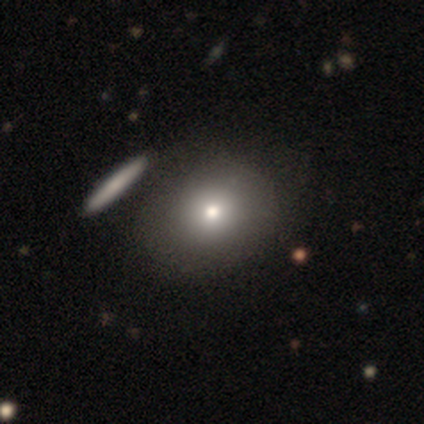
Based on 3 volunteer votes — Smooth or featured?
  - smooth: 100% *
  - featured or disk: 0%
  - star or artifact: 0%
How rounded?
  - round: 67% *
  - in between: 33%
  - cigar-shaped: 0%
Merging?
  - none: 33% * (tied)
  - minor disturbance: 33% * (tied)
  - major disturbance: 33% * (tied)
  - merger: 0%